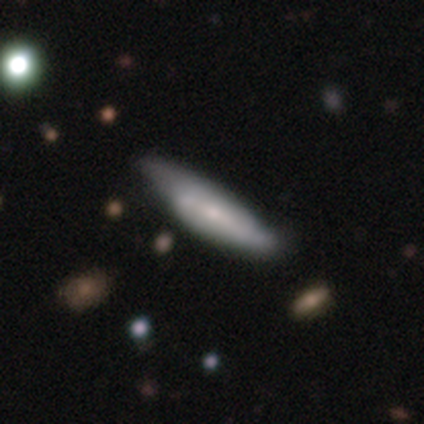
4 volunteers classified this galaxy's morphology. A featured or disk galaxy (75%) with a weak bar (50%, tied with no), 2 (50%, tied with can't tell) loose (100%) spiral arms (100%) and a small central bulge (100%). Merging: none (50%, tied with minor disturbance).